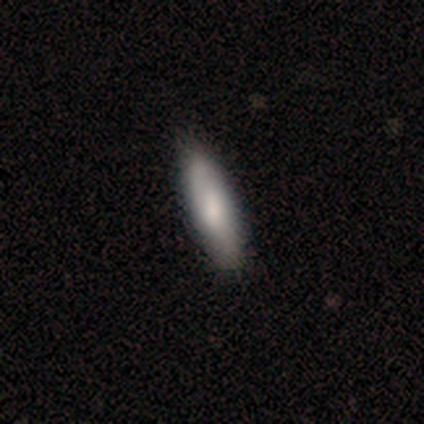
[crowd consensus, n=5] Morphology: type=smooth (60%); roundness=cigar-shaped (100%); merging=none (80%).